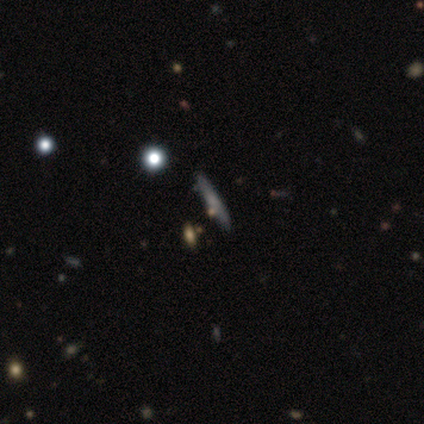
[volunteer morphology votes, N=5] Smooth or featured? smooth (60%)
How rounded? cigar-shaped (100%)
Merging? none (80%)